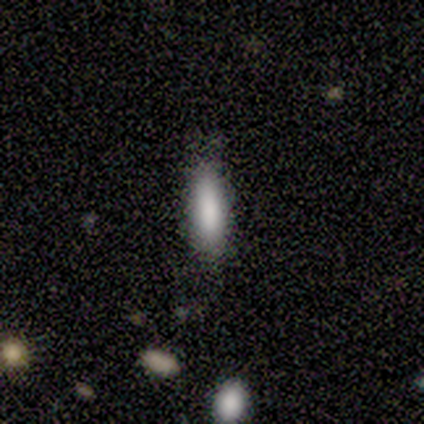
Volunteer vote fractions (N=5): smooth-or-featured: smooth: 80% | star or artifact: 20% | featured or disk: 0%
  how-rounded: cigar-shaped: 100% | round: 0% | in between: 0%
  merging: none: 100% | minor disturbance: 0% | major disturbance: 0% | merger: 0%